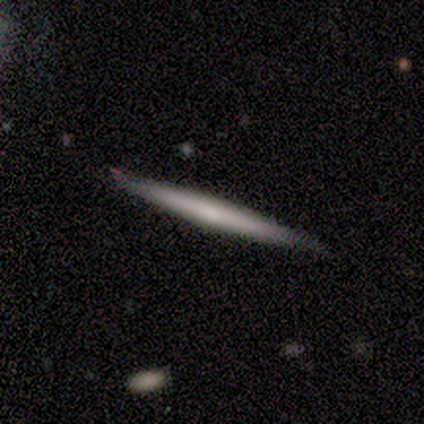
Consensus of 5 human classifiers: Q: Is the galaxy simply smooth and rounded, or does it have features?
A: featured or disk — 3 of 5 (60%).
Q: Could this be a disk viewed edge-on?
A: yes — 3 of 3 (100%).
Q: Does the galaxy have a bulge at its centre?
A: none — 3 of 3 (100%).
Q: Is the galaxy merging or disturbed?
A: none — 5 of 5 (100%).